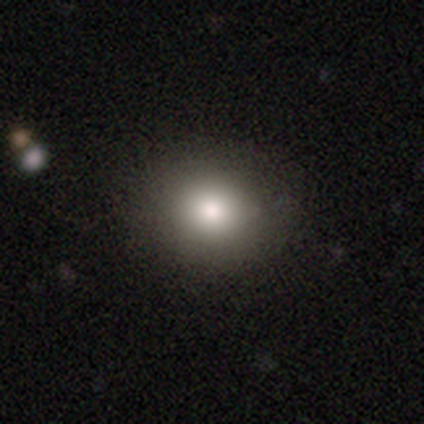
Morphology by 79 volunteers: A smooth galaxy with no disk features (89%) that is round (61%). Merging: none (45%).